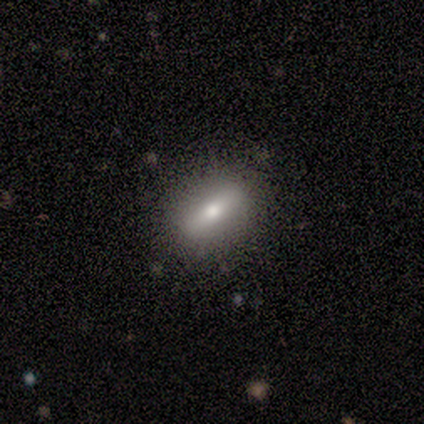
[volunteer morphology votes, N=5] smooth 60%, featured or disk 40%, star or artifact 0%. Down the decision tree: how rounded — in between (67%); merging — none (100%).